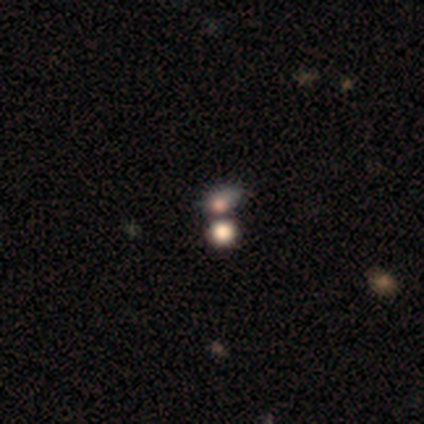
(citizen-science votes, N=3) Q: Smooth or featured?
A: featured or disk (67%); runner-up: smooth (33%)
Q: Edge-on disk?
A: no (100%)
Q: Bar?
A: no (100%)
Q: Spiral arms?
A: no (100%)
Q: Bulge size?
A: large (50%); tied with: none (50%)
Q: Merging?
A: none (67%); runner-up: merger (33%)